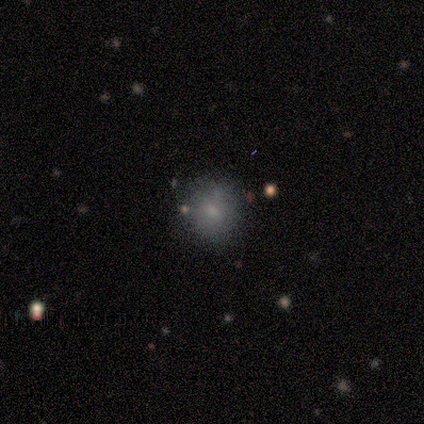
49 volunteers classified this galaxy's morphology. This is likely a smooth galaxy (76%). How rounded: clearly round (89%). Merging: clearly none (80%).